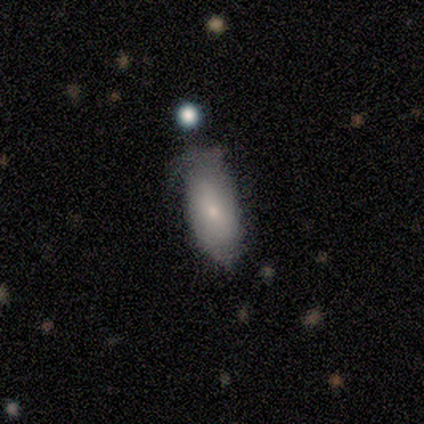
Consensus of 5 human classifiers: Smooth or featured? featured or disk (60%)
Edge-on disk? no (100%)
Bar? weak (67%)
Spiral arms? no (100%)
Bulge size? small (100%)
Merging? none (60%)